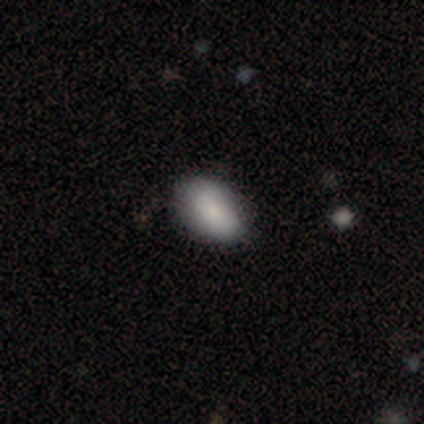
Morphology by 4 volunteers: This is clearly a smooth galaxy (100%). How rounded: likely in between (75%). Merging: clearly none (100%).